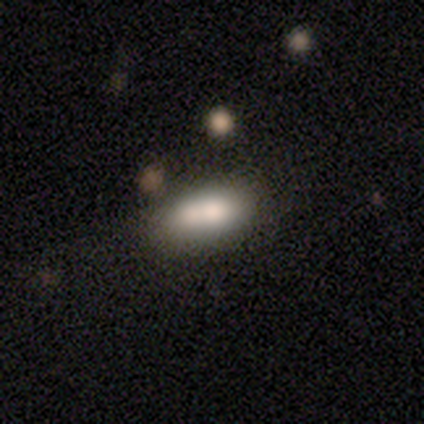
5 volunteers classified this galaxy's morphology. smooth-or-featured: smooth: 60% | featured or disk: 40% | star or artifact: 0%
  how-rounded: in between: 100% | round: 0% | cigar-shaped: 0%
  merging: merger: 60% | major disturbance: 40% | none: 0% | minor disturbance: 0%